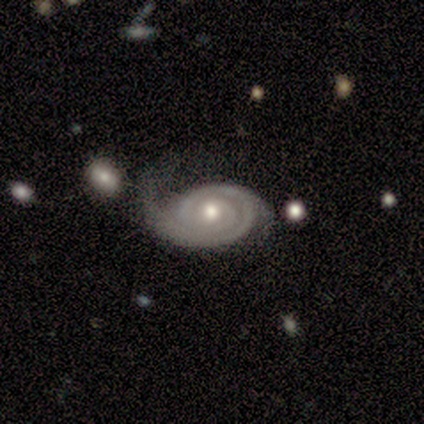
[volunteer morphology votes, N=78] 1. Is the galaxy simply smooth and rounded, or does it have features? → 87% featured or disk, 8% smooth, 5% star or artifact.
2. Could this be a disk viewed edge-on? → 97% no, 3% yes.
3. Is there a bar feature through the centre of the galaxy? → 85% no, 14% weak, 2% strong.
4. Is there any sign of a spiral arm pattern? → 98% yes, 2% no.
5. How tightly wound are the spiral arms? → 75% tight, 18% medium, 6% loose.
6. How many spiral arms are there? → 40% 2, 34% 1, 18% can't tell, 6% 3, 2% more than 4, 0% 4.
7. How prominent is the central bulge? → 76% moderate, 18% small, 5% large, 2% none, 0% dominant.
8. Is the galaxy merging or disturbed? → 26% none, 22% minor disturbance, 7% merger, 4% major disturbance.